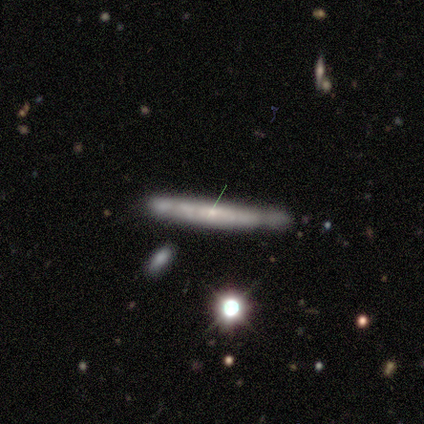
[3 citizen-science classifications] This appears to be a smooth galaxy with no disk features (33%, tied with featured or disk and star or artifact) that is cigar-shaped (100%). Merging: none (50%, tied with major disturbance).